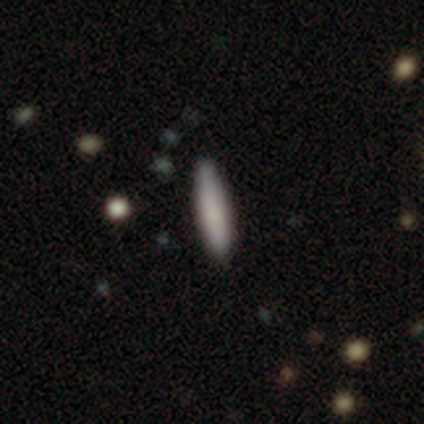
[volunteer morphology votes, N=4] smooth-or-featured: smooth: 75% | star or artifact: 25% | featured or disk: 0%
  how-rounded: cigar-shaped: 100% | round: 0% | in between: 0%
  merging: none: 100% | minor disturbance: 0% | major disturbance: 0% | merger: 0%